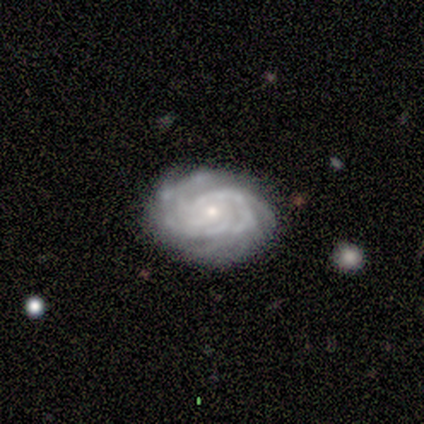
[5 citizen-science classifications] Volunteers were most divided on "spiral arm count": 3: 50%, 4: 25%, can't tell: 25%, 1: 0%, 2: 0%, more than 4: 0%. More confident: edge-on disk — no (100%); bar — no (100%); spiral arms — yes (100%); spiral winding — tight (100%); merging — none (100%); smooth or featured — featured or disk (80%); bulge size — small (75%).